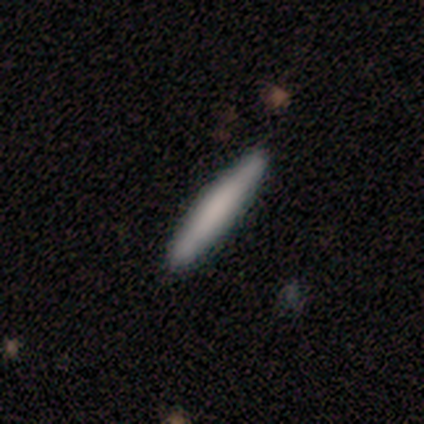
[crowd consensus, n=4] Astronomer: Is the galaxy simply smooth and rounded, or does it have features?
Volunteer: smooth — 100%.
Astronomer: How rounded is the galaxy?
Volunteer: cigar-shaped — 100%.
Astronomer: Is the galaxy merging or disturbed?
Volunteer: none — 100%.